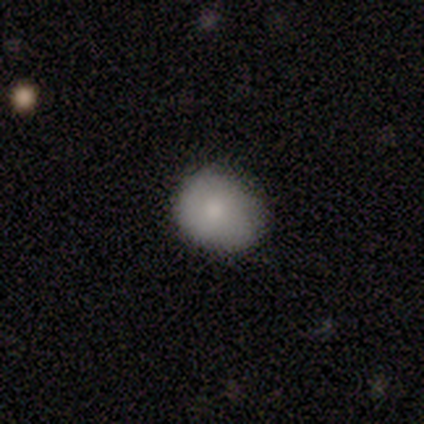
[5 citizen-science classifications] Smooth or featured? 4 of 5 (80%) said smooth. How rounded? 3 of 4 (75%) said round. Merging? 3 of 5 (60%) said none.